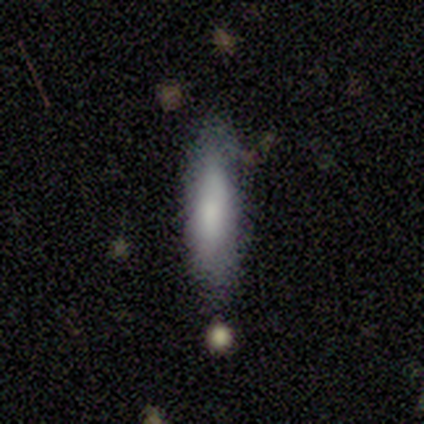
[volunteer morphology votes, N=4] Volunteers were most divided on "merging" (2-way tie): none: 50%, minor disturbance: 50%, major disturbance: 0%, merger: 0%. More confident: smooth or featured — smooth (100%); how rounded — cigar-shaped (100%).